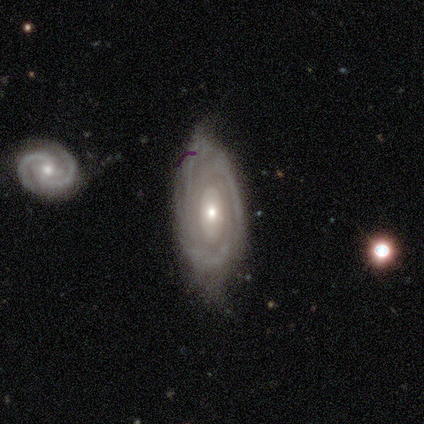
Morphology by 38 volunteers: type=featured or disk (92%); edge-on=no (86%); bar=no (83%); spiral arms=yes (93%); winding=tight (75%); arm count=can't tell (57%); bulge=small (63%); merging=none (61%).